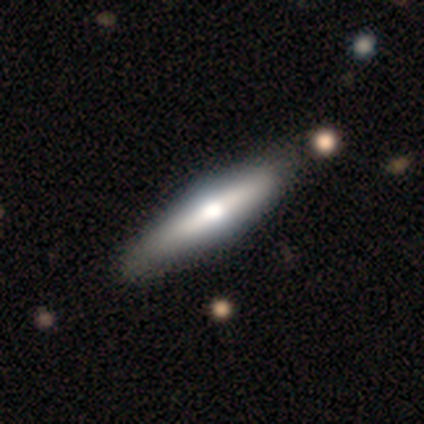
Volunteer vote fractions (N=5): Q: Smooth or featured?
A: featured or disk (60%); runner-up: smooth (40%)
Q: Edge-on disk?
A: yes (100%)
Q: Edge-on bulge?
A: rounded (67%); runner-up: boxy (33%)
Q: Merging?
A: none (60%); runner-up: minor disturbance (20%)